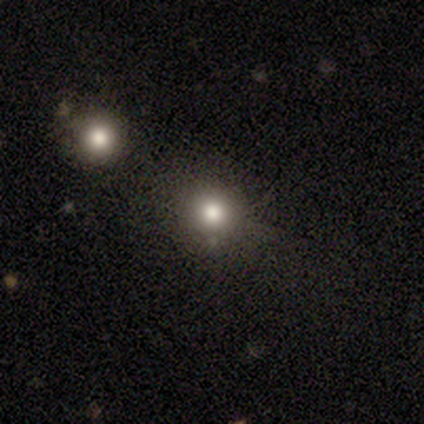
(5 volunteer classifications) Smooth or featured? smooth (60%)
How rounded? round (100%)
Merging? none (100%)